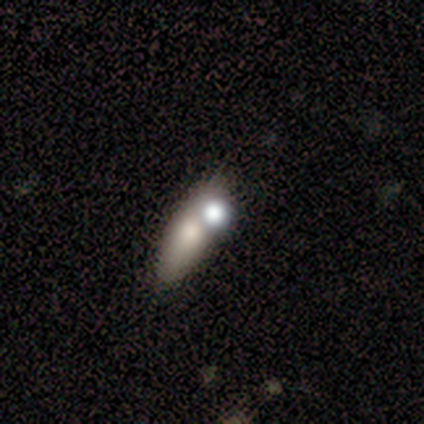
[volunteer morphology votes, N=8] A smooth galaxy with no disk features (75%) that is in between round and cigar-shaped (67%).

Vote fractions:
- Smooth or featured? smooth: 75% / featured or disk: 12% / star or artifact: 12%
- How rounded? in between: 67% / cigar-shaped: 33% / round: 0%
- Merging? none: 86% / merger: 14% / minor disturbance: 0% / major disturbance: 0%